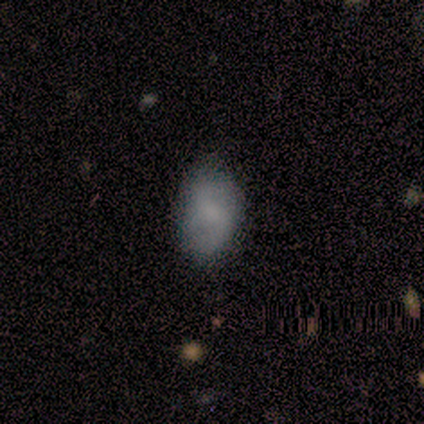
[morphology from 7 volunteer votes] type=smooth (71%); roundness=in between (100%); merging=none (57%).